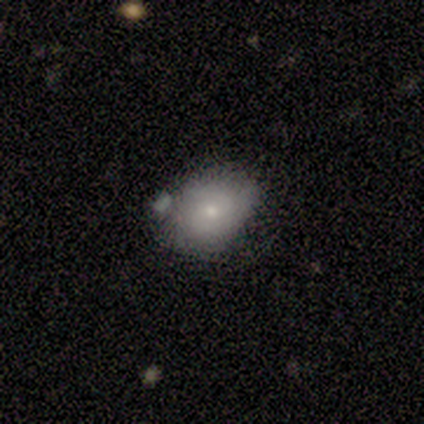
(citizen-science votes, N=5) Morphology: type=smooth (60%); roundness=in between (67%); merging=none (50%).